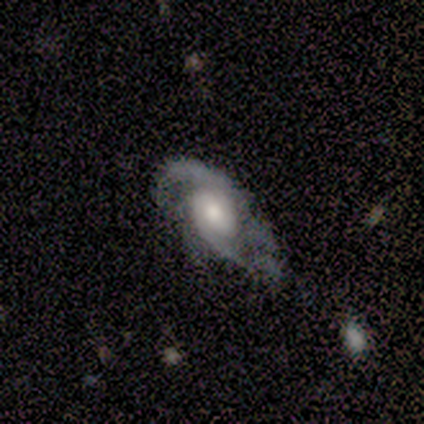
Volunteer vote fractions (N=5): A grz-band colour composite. It shows a featured or disk galaxy (80%) with no bar (75%), 2 (50%, tied with can't tell) tight (50%, tied with medium) spiral arms (100%) and a moderate central bulge (75%). Merging: none (40%, tied with major disturbance).